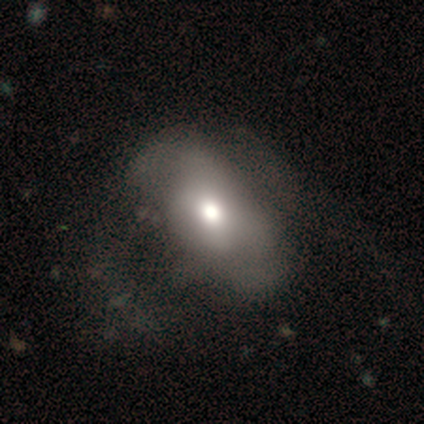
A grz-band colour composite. It shows a smooth galaxy with no disk features (60%) that is in between round and cigar-shaped (100%). Merging: none (80%).